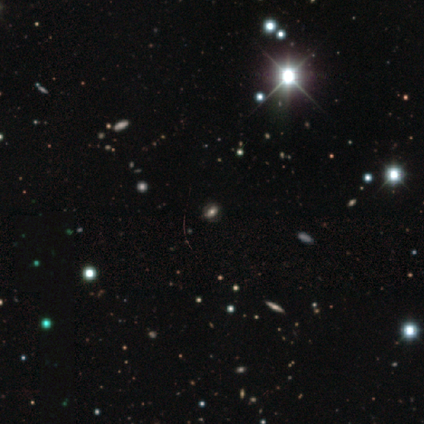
Smooth or featured? star or artifact (53%)